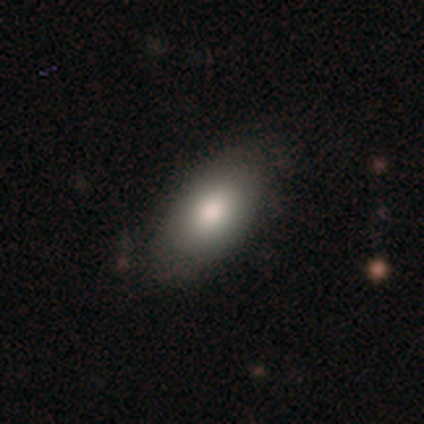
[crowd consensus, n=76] A smooth galaxy with no disk features (88%) that is in between round and cigar-shaped (91%).

Vote fractions:
- Smooth or featured? smooth: 88% / featured or disk: 8% / star or artifact: 4%
- How rounded? in between: 91% / round: 4% / cigar-shaped: 4%
- Merging? none: 42% / minor disturbance: 11% / major disturbance: 1% / merger: 1%